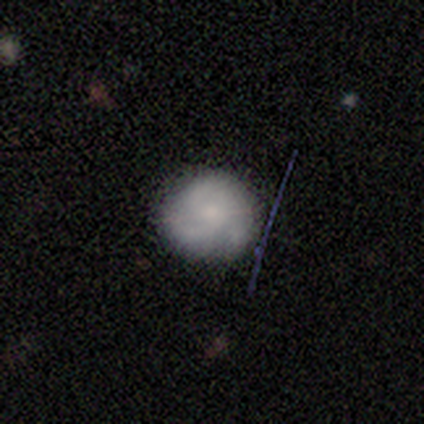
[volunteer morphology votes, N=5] Volunteers were most divided on "smooth or featured" (2-way tie): smooth: 40%, featured or disk: 40%, star or artifact: 20%. More confident: how rounded — round (100%); merging — none (100%).